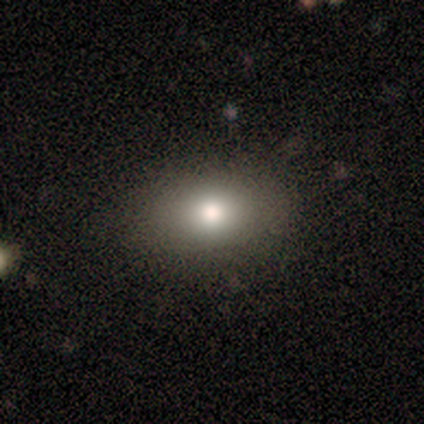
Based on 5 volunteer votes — Smooth or featured? smooth (60%)
How rounded? in between (100%)
Merging? none (100%)